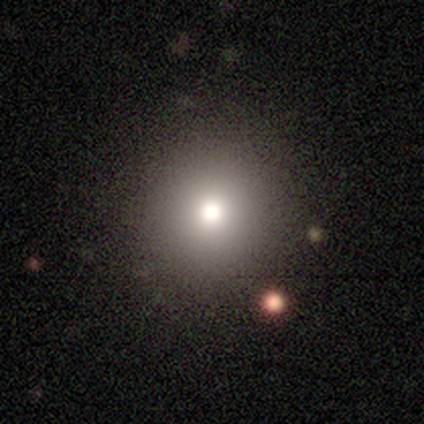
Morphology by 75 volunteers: Smooth or featured: smooth — 84% (star or artifact — 13%)
How rounded: round — 86% (in between — 14%)
Merging: none — 45% (merger — 3%)